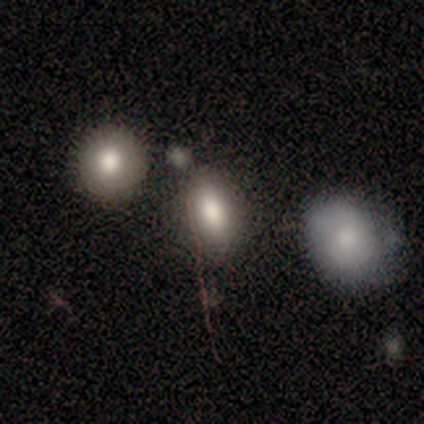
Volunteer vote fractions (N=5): smooth-or-featured: smooth: 60% | featured or disk: 20% | star or artifact: 20%
  how-rounded: in between: 100% | round: 0% | cigar-shaped: 0%
  merging: none: 50% | minor disturbance: 25% | merger: 25% | major disturbance: 0%